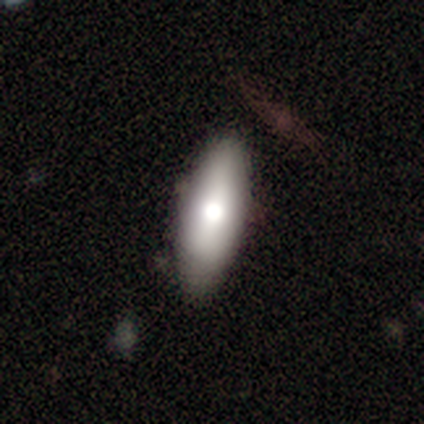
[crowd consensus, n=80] smooth_or_featured: smooth (p=0.72) [alt: featured or disk p=0.20]
how_rounded: in between (p=0.74) [alt: cigar-shaped p=0.22]
merging: none (p=0.38) [alt: minor disturbance p=0.12]